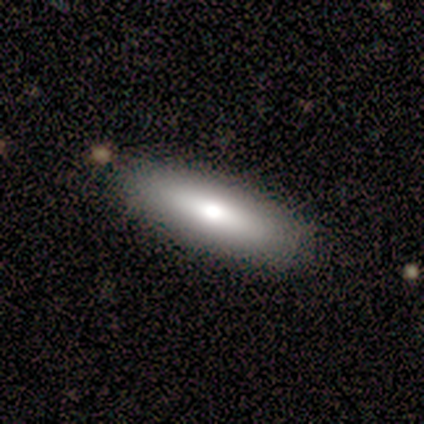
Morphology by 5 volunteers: This appears to be a smooth galaxy with no disk features (60%) that is cigar-shaped (67%). Merging: none (100%).